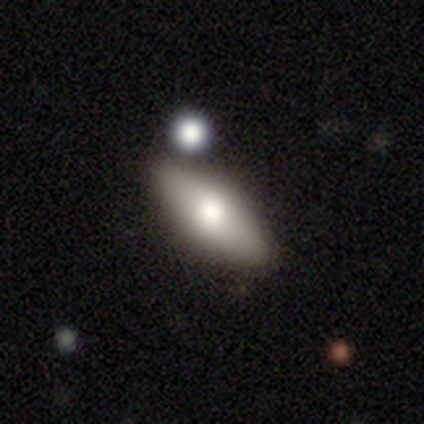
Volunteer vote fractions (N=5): This appears to be a smooth galaxy with no disk features (80%) that is in between round and cigar-shaped (50%). Merging: none (100%).